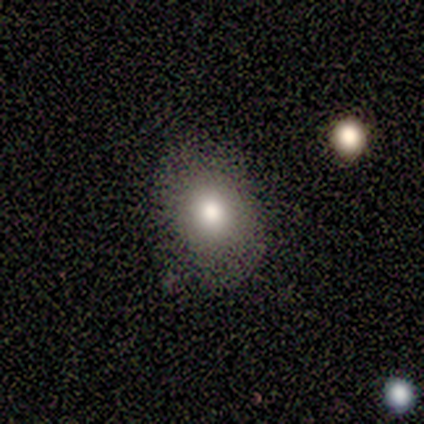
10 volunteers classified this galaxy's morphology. Overall: smooth (70%). How rounded: in between (100%). Merging: none (89%).